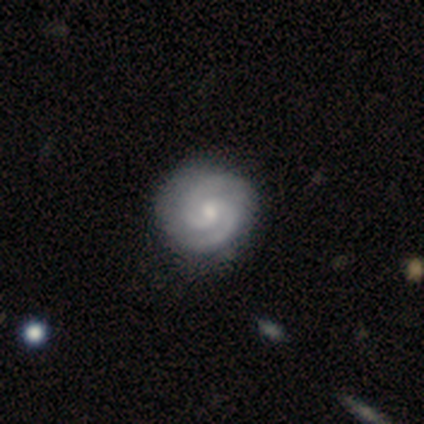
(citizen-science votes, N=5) smooth_or_featured: featured or disk (p=1.00)
disk_edge_on: no (p=1.00)
bar: no (p=0.80) [alt: weak p=0.20]
has_spiral_arms: yes (p=1.00)
spiral_winding: tight (p=1.00)
spiral_arm_count: 2 (p=1.00)
bulge_size: moderate (p=0.60) [alt: small p=0.40]
merging: none (p=0.60) [alt: minor disturbance p=0.20]